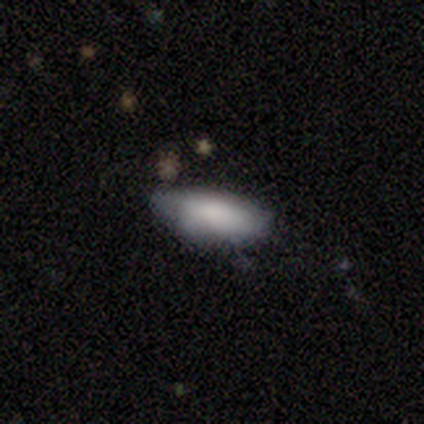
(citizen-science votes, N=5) Smooth or featured? smooth (100%)
How rounded? in between (100%)
Merging? minor disturbance (100%)